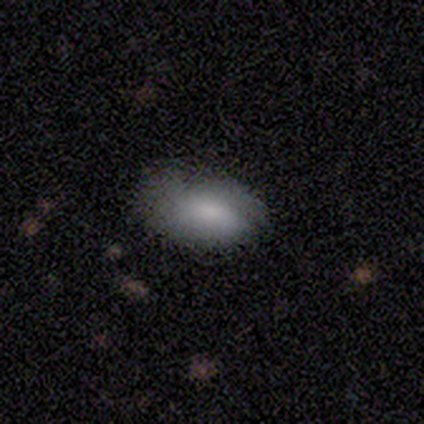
A star or artifact, not a galaxy (60%).

Vote fractions:
- Smooth or featured? star or artifact: 60% / smooth: 40% / featured or disk: 0%